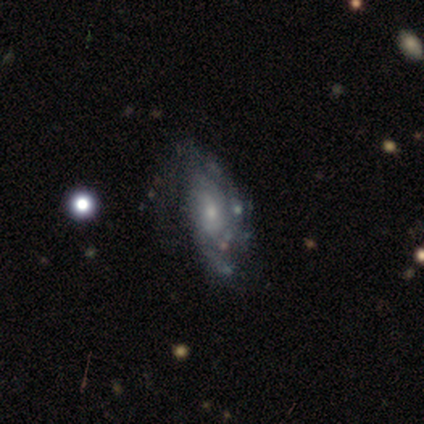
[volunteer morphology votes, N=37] Overall: featured or disk (92%). Edge-on disk: no (94%). Bar: no (72%). Spiral arms: yes (75%). Spiral arm count: can't tell (54%; 2 38%). Spiral winding: tight (58%; medium 38%). Bulge size: small (72%). Merging: none (53%; minor disturbance 19%).